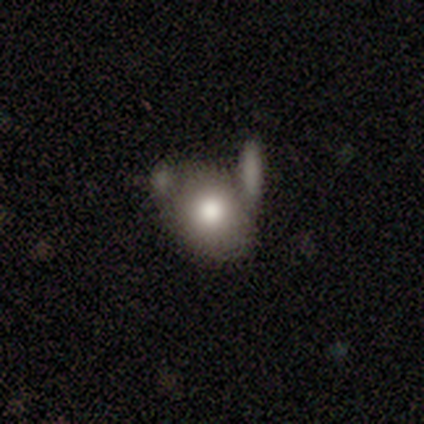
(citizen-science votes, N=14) A smooth galaxy with no disk features (64%) that is round (67%).

Vote fractions:
- Smooth or featured? smooth: 64% / featured or disk: 21% / star or artifact: 14%
- How rounded? round: 67% / in between: 33% / cigar-shaped: 0%
- Merging? none: 67% / merger: 25% / minor disturbance: 8% / major disturbance: 0%